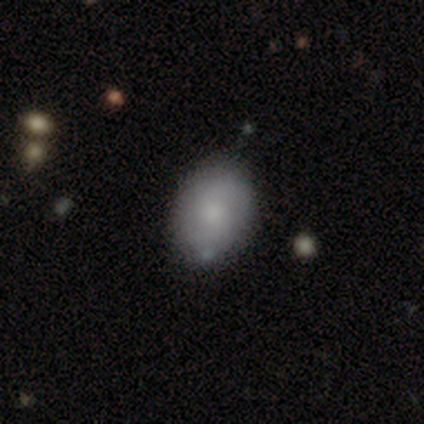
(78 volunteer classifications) smooth_or_featured: smooth (p=0.72) [alt: featured or disk p=0.23]
how_rounded: in between (p=0.73) [alt: round p=0.27]
merging: none (p=0.54) [alt: minor disturbance p=0.15]